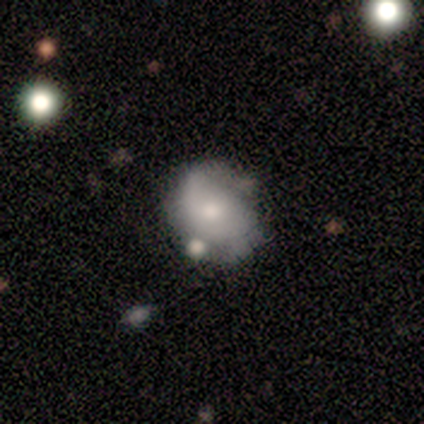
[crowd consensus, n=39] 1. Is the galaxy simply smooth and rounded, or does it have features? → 49% featured or disk, 46% smooth, 5% star or artifact.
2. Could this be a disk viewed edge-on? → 100% no, 0% yes.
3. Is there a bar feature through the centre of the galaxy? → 89% no, 11% weak, 0% strong.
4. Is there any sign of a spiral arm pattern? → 53% yes, 47% no.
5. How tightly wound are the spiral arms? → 60% loose, 20% tight, 20% medium.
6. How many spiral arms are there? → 80% 2, 10% 1, 10% can't tell, 0% 3, 0% 4, 0% more than 4.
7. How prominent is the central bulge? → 42% moderate, 32% small, 16% none, 5% dominant, 5% large.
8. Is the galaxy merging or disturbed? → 62% none, 24% minor disturbance, 8% major disturbance, 5% merger.